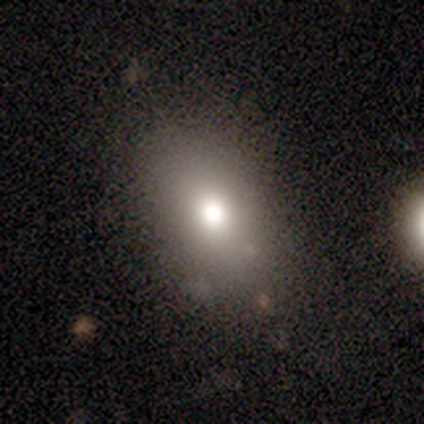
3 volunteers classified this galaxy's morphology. smooth 100%, featured or disk 0%, star or artifact 0%. Down the decision tree: how rounded — in between (67%); merging — none (67%).